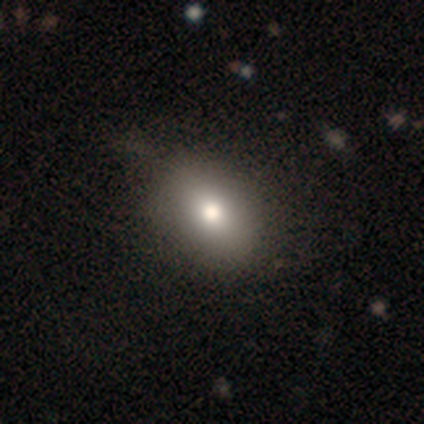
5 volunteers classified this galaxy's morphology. Volunteers were most divided on "merging": none: 60%, minor disturbance: 40%, major disturbance: 0%, merger: 0%. More confident: smooth or featured — smooth (100%); how rounded — in between (80%).